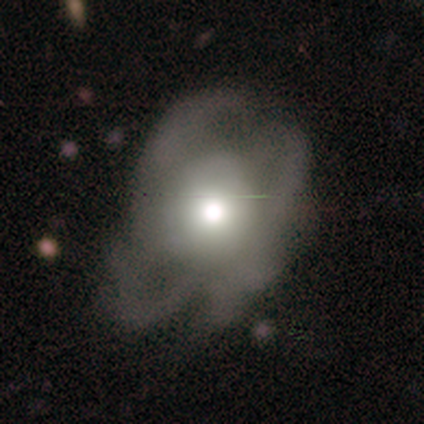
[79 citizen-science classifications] Morphology: type=featured or disk (61%); edge-on=no (98%); bar=no (96%); spiral arms=yes (60%); winding=loose (50%); arm count=can't tell (57%); bulge=moderate (49%); merging=major disturbance (33%).